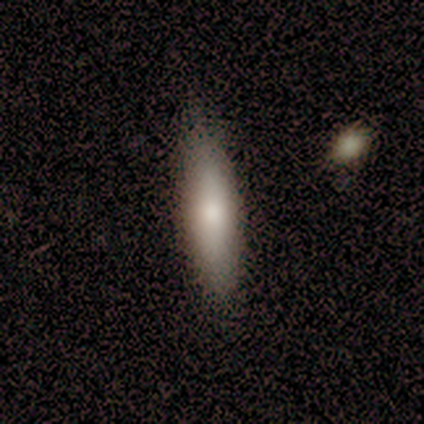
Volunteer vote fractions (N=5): smooth 60%, featured or disk 40%, star or artifact 0%. Down the decision tree: how rounded — in between (67%); merging — none (60%).